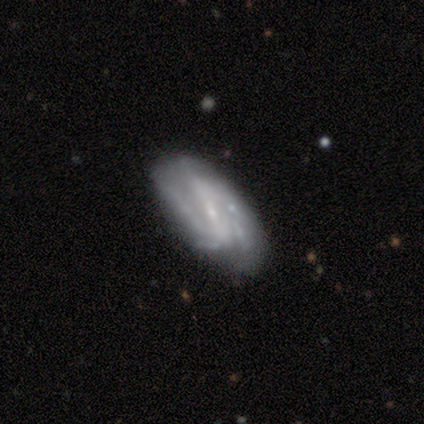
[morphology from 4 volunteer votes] smooth-or-featured: featured or disk: 75% | smooth: 25% | star or artifact: 0%
  disk-edge-on: no: 100% | yes: 0%
    bar: strong: 33% (tied) | weak: 33% (tied) | no: 33% (tied)
    has-spiral-arms: yes: 100% | no: 0%
      spiral-winding: loose: 67% | medium: 33% | tight: 0%
      spiral-arm-count: 2: 67% | 3: 33% | 1: 0% | 4: 0% | more than 4: 0% | can't tell: 0%
    bulge-size: small: 67% | none: 33% | dominant: 0% | large: 0% | moderate: 0%
  merging: none: 50% (tied) | minor disturbance: 50% (tied) | major disturbance: 0% | merger: 0%